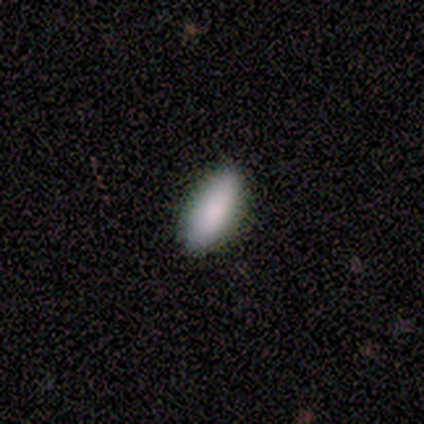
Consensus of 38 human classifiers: This is clearly a smooth galaxy (87%). How rounded: likely in between (79%). Merging: clearly none (89%).